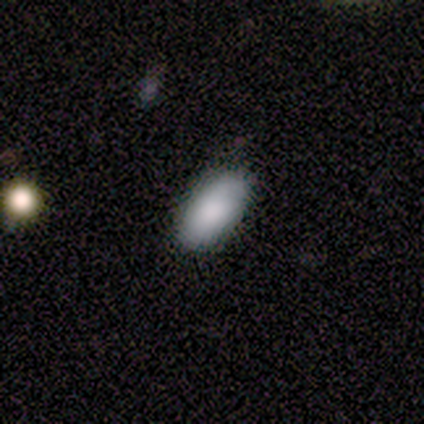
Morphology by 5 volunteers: A smooth galaxy with no disk features (100%) that is in between round and cigar-shaped (100%). Merging: none (100%).